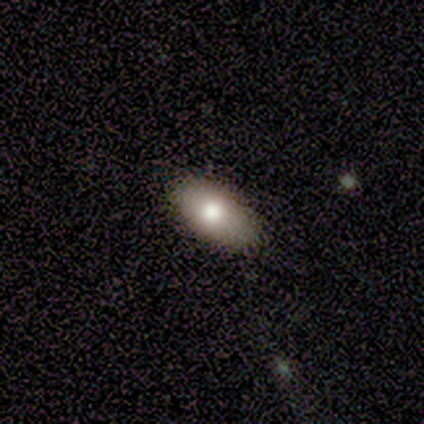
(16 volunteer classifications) Morphology: type=smooth (100%); roundness=in between (75%); merging=none (88%).